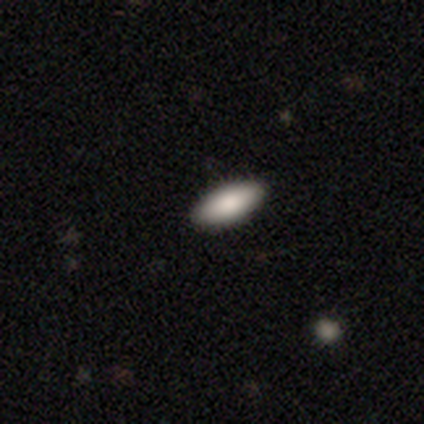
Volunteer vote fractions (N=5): Volunteers were most divided on "smooth or featured": smooth: 80%, featured or disk: 20%, star or artifact: 0%. More confident: how rounded — in between (100%); merging — none (100%).